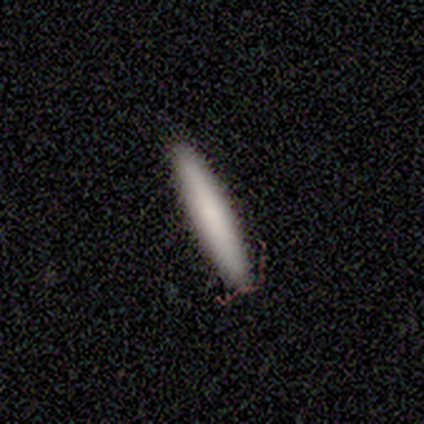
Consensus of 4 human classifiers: Volunteers were most divided on "merging": none: 75%, minor disturbance: 25%, major disturbance: 0%, merger: 0%. More confident: smooth or featured — smooth (100%); how rounded — cigar-shaped (100%).